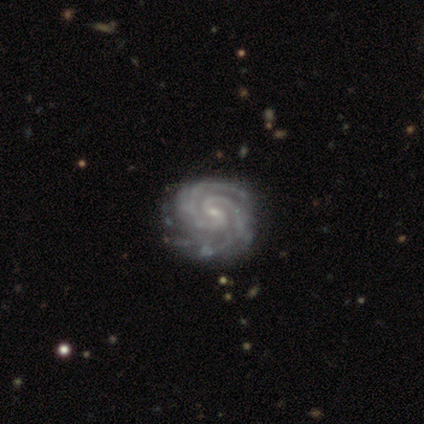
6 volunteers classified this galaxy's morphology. Overall: featured or disk (100%). Edge-on disk: no (100%). Bar: no (50%; strong 33%). Spiral arms: yes (100%). Spiral arm count: 2 (83%). Spiral winding: tight (83%). Bulge size: small (100%). Merging: none (100%).